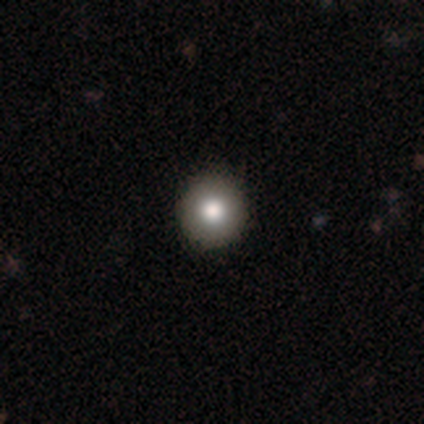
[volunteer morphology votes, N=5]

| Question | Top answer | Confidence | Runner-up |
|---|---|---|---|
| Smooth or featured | smooth | 100% | — |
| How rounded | round | 100% | — |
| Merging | none | 80% | minor disturbance (20%) |